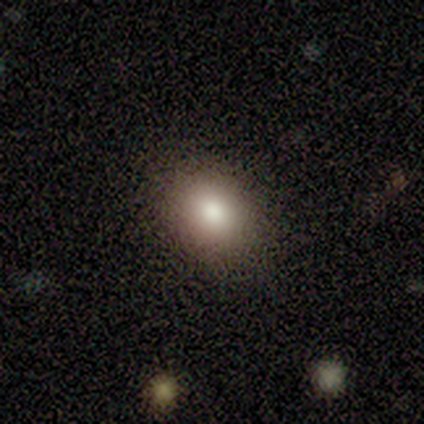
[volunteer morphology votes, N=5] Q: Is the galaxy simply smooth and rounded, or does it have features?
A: smooth — 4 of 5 (80%).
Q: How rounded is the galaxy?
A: in between — 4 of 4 (100%).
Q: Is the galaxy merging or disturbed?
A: none — 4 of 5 (80%).